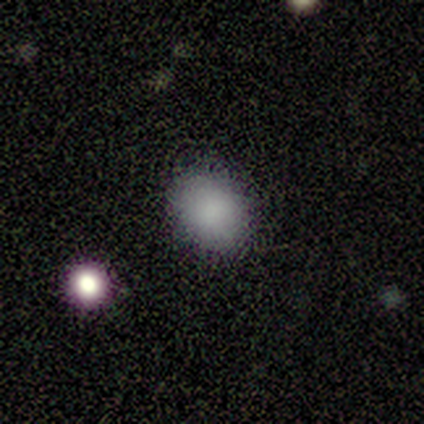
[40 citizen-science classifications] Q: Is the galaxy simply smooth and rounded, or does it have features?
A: smooth — 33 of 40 (82%).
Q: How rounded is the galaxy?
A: in between — 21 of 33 (64%).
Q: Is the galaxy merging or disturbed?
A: none — 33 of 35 (94%).